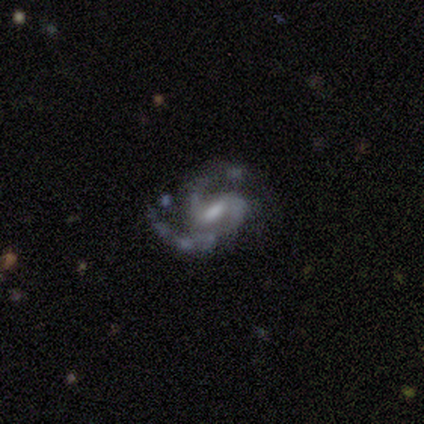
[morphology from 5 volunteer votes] featured or disk 100%, smooth 0%, star or artifact 0%. Down the decision tree: edge-on disk — no (100%); bar — strong (40%, tied with weak); spiral arms — yes (100%); spiral arm count — 2 (80%); spiral winding — medium (60%); bulge size — moderate (80%); merging — none (60%).